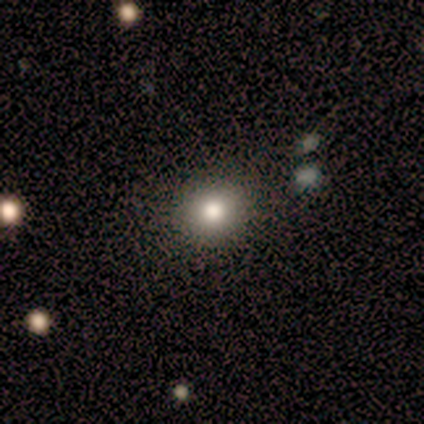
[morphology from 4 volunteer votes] A smooth galaxy with no disk features (100%) that is round (75%).

Vote fractions:
- Smooth or featured? smooth: 100% / featured or disk: 0% / star or artifact: 0%
- How rounded? round: 75% / in between: 25% / cigar-shaped: 0%
- Merging? none: 75% / minor disturbance: 25% / major disturbance: 0% / merger: 0%